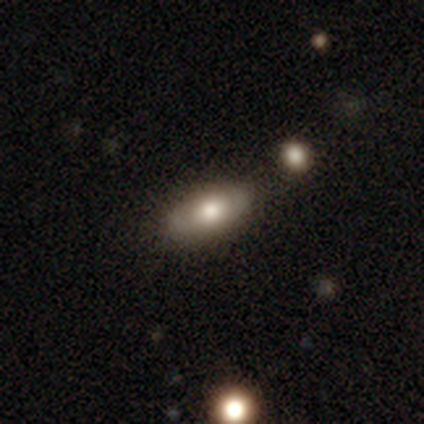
A smooth galaxy with no disk features (65%) that is in between round and cigar-shaped (88%). Merging: none (39%).